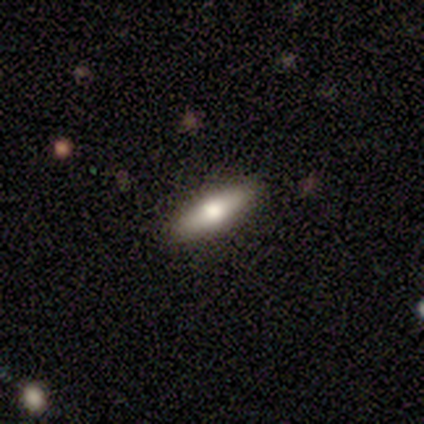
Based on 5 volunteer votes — Overall: smooth (80%). How rounded: in between (50%, tied with cigar-shaped). Merging: none (80%).